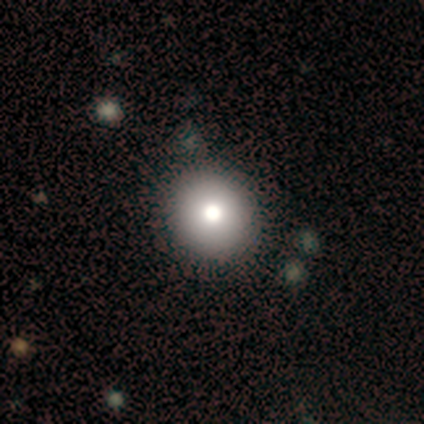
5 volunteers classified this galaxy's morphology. smooth 80%, featured or disk 20%, star or artifact 0%. Down the decision tree: how rounded — round (100%); merging — none (80%).